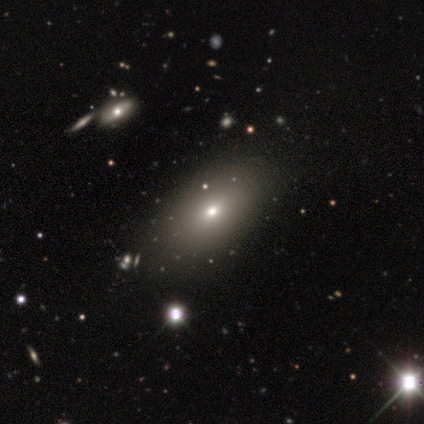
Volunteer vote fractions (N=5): Morphology: type=smooth (60%); roundness=in between (100%); merging=none (100%).